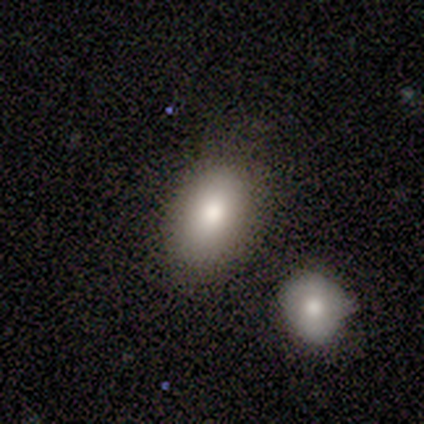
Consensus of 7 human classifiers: smooth 71%, featured or disk 29%, star or artifact 0%. Down the decision tree: how rounded — in between (80%); merging — none (57%).